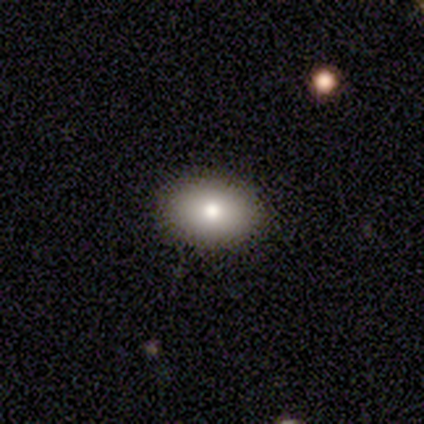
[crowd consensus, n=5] Overall: smooth (60%; star or artifact 40%). How rounded: in between (100%). Merging: none (67%; minor disturbance 33%).